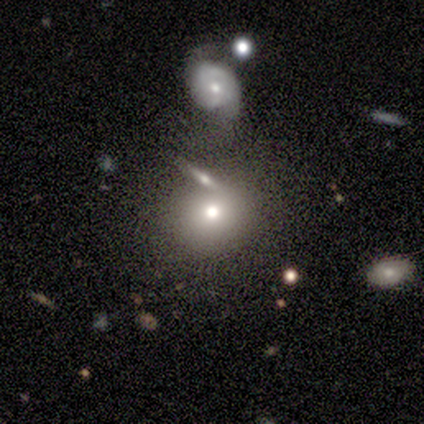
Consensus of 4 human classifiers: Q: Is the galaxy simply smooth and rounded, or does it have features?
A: smooth — 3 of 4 (75%).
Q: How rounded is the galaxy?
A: round — 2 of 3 (67%).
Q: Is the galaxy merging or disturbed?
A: merger — 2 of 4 (50%).